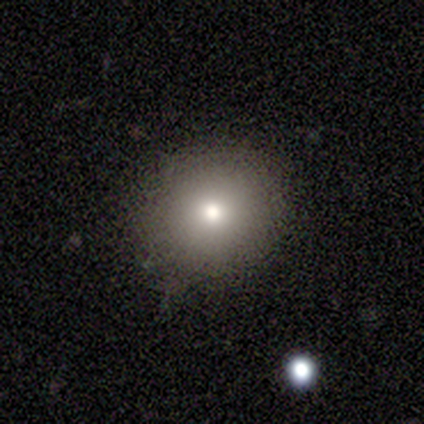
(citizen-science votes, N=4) Volunteers were most divided on "smooth or featured": smooth: 75%, star or artifact: 25%, featured or disk: 0%. More confident: how rounded — round (100%); merging — none (100%).